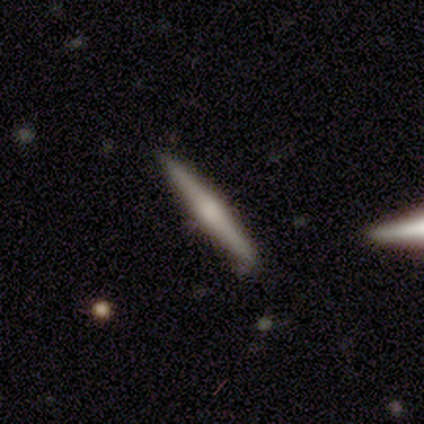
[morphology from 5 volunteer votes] This appears to be a smooth galaxy with no disk features (40%, tied with featured or disk) that is cigar-shaped (100%). Merging: none (75%).